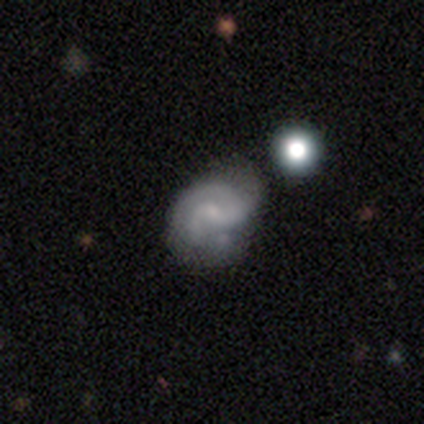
Overall: featured or disk (100%). Edge-on disk: no (100%). Bar: no (100%). Spiral arms: yes (100%). Spiral arm count: 2 (100%). Spiral winding: tight (50%, tied with medium). Bulge size: small (50%, tied with none). Merging: none (50%, tied with major disturbance).